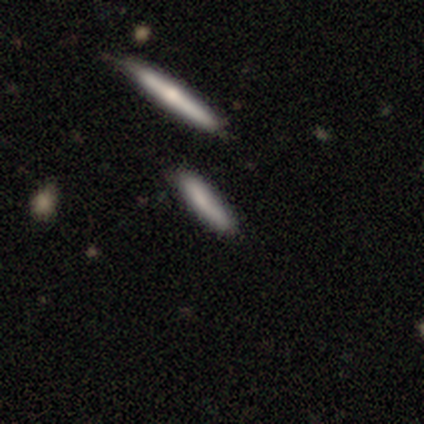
A smooth galaxy with no disk features (80%) that is cigar-shaped (100%).

Vote fractions:
- Smooth or featured? smooth: 80% / featured or disk: 20% / star or artifact: 0%
- How rounded? cigar-shaped: 100% / round: 0% / in between: 0%
- Merging? none: 80% / merger: 20% / minor disturbance: 0% / major disturbance: 0%